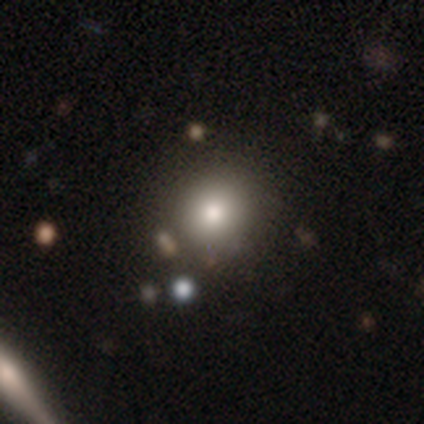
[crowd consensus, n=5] smooth_or_featured: smooth (p=1.00)
how_rounded: round (p=1.00)
merging: none (p=0.80) [alt: merger p=0.20]